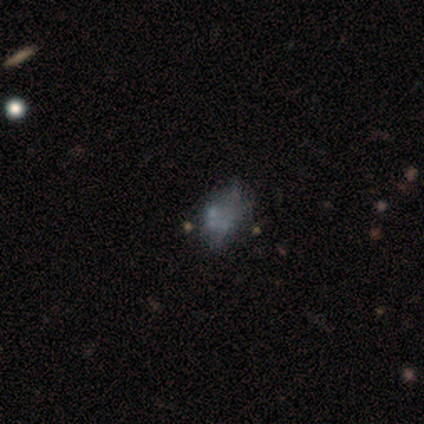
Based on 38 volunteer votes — Volunteers were most divided on "smooth or featured": featured or disk: 50%, smooth: 29%, star or artifact: 21%. Remaining: bar — no (100%); spiral arms — no (100%); edge-on disk — no (89%); bulge size — none (82%); merging — none (47%).